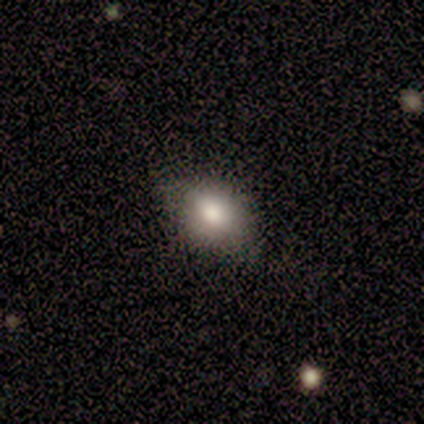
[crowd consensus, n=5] smooth_or_featured: smooth (p=0.60) [alt: featured or disk p=0.20]
how_rounded: in between (p=1.00)
merging: none (p=0.50) [tied with: minor disturbance p=0.50]